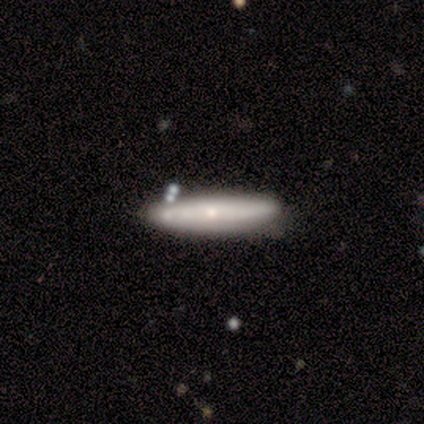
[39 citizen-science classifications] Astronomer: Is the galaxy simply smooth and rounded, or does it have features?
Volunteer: featured or disk — 56% (runner-up: smooth, 44%).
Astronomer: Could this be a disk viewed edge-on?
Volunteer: yes — 68%.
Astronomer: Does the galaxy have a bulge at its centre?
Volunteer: rounded — 53% (runner-up: none, 47%).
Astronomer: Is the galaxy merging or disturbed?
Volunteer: none — 59%.